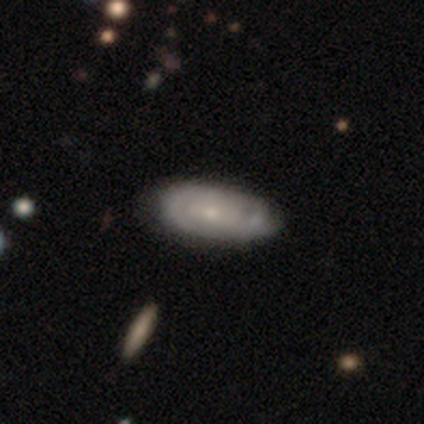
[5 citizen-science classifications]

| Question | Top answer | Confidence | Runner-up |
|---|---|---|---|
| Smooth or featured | featured or disk | 60% | smooth (40%) |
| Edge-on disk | no | 100% | — |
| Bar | no | 100% | — |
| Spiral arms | yes | 100% | — |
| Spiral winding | tight | 67% | medium (33%) |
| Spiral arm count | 3 | 67% | 2 (33%) |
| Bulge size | small | 67% | moderate (33%) |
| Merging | none | 40% | tied: merger (40%) |